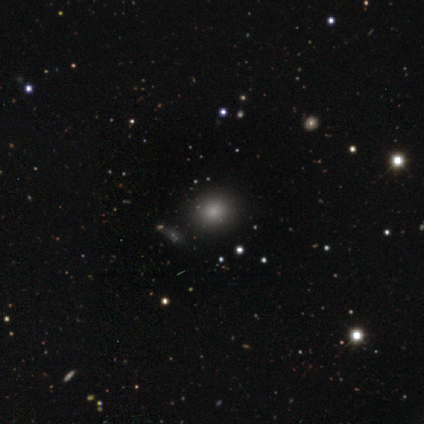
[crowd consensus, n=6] smooth 50%, featured or disk 33%, star or artifact 17%. Down the decision tree: how rounded — round (100%); merging — none (100%).